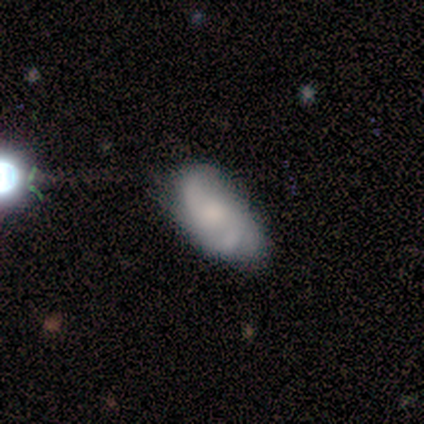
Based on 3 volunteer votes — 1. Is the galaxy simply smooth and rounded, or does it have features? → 67% featured or disk, 33% smooth, 0% star or artifact.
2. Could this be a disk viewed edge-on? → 100% no, 0% yes.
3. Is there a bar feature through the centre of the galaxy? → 100% no, 0% strong, 0% weak.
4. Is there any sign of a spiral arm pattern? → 100% yes, 0% no.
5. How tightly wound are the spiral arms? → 100% medium, 0% tight, 0% loose.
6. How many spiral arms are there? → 50% 2 (tied), 50% 3 (tied), 0% 1, 0% 4, 0% more than 4, 0% can't tell.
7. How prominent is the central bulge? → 50% moderate (tied), 50% none (tied), 0% dominant, 0% large, 0% small.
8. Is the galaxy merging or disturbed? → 67% minor disturbance, 33% merger, 0% none, 0% major disturbance.